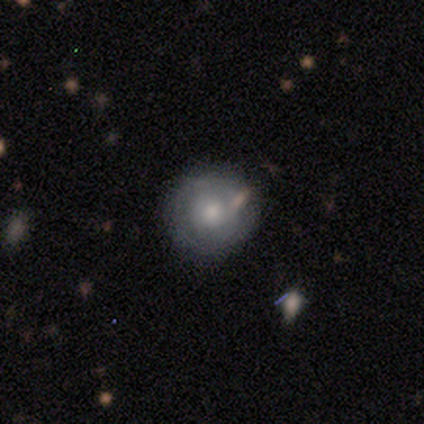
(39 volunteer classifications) A smooth galaxy with no disk features (56%) that is round (95%). Merging: none (83%).